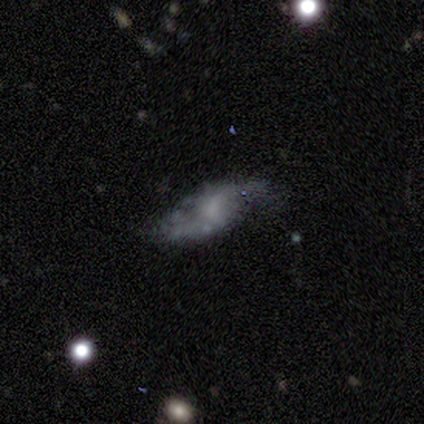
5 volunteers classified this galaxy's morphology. A featured or disk galaxy (80%) with a weak bar (100%), 2 (100%) loose (67%) spiral arms (100%) and no central bulge (67%). Merging: none (40%, tied with major disturbance).